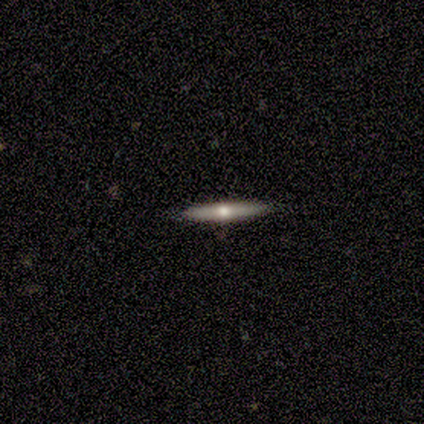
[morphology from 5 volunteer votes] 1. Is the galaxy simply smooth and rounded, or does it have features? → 100% featured or disk, 0% smooth, 0% star or artifact.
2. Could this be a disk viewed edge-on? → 100% yes, 0% no.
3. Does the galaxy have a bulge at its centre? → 80% rounded, 20% none, 0% boxy.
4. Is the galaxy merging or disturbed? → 80% none, 20% minor disturbance, 0% major disturbance, 0% merger.